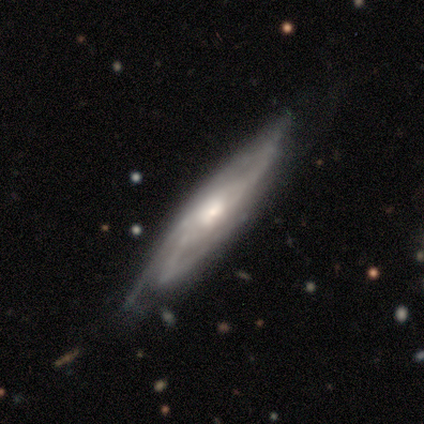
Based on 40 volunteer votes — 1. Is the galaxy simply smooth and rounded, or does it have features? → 85% featured or disk, 10% smooth, 5% star or artifact.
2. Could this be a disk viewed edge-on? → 74% no, 26% yes.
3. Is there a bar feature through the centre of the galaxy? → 64% no, 20% weak, 16% strong.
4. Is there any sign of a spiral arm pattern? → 92% yes, 8% no.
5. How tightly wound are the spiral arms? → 61% medium, 35% tight, 4% loose.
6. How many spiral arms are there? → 43% can't tell, 35% 3, 13% 2, 4% 1, 4% 4, 0% more than 4.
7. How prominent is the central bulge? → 64% moderate, 16% large, 16% small, 4% none, 0% dominant.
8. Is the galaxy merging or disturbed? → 55% none, 34% minor disturbance, 8% major disturbance, 3% merger.